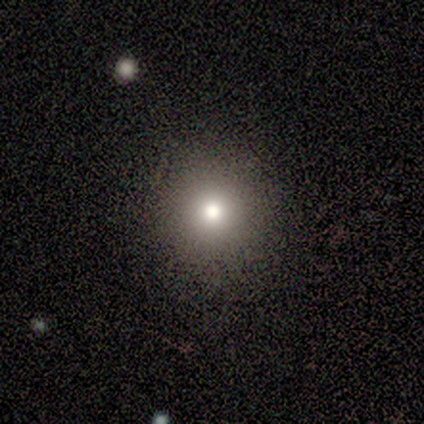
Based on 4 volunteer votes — smooth 100%, featured or disk 0%, star or artifact 0%. Down the decision tree: how rounded — round (100%); merging — none (100%).